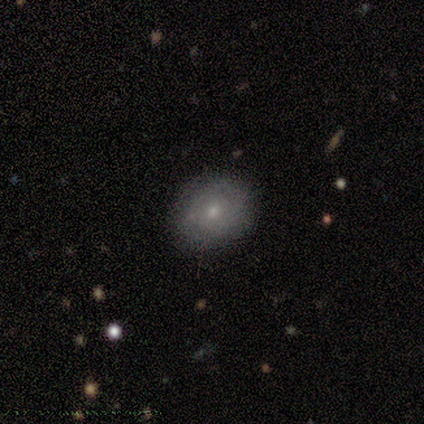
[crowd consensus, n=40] This appears to be a smooth galaxy with no disk features (52%) that is in between round and cigar-shaped (52%). Merging: none (83%).